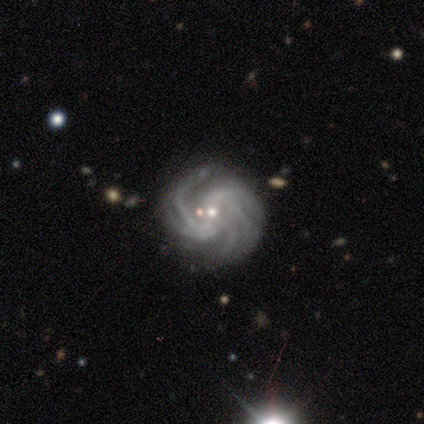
Smooth or featured? featured or disk (100%)
Edge-on disk? no (100%)
Bar? weak (70%)
Spiral arms? yes (100%)
Spiral winding? tight (80%)
Spiral arm count? more than 4 (60%)
Bulge size? small (60%)
Merging? none (60%)